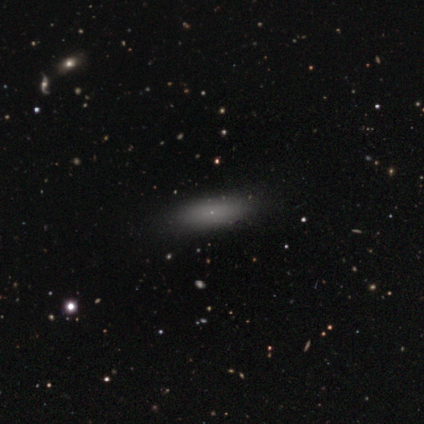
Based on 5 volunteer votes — smooth_or_featured: smooth (p=0.80) [alt: featured or disk p=0.20]
how_rounded: in between (p=1.00)
merging: none (p=0.80) [alt: minor disturbance p=0.20]